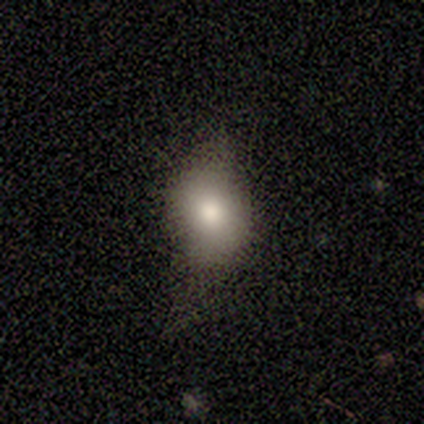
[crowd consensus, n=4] Smooth or featured? smooth (100%)
How rounded? round (50%, tied with in between)
Merging? none (75%)